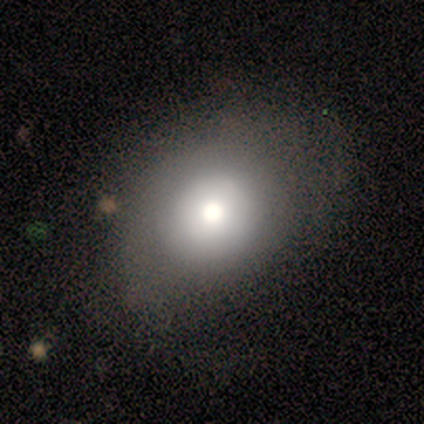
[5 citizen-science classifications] smooth-or-featured: smooth: 100% | featured or disk: 0% | star or artifact: 0%
  how-rounded: in between: 80% | round: 20% | cigar-shaped: 0%
  merging: none: 60% | minor disturbance: 20% | major disturbance: 20% | merger: 0%